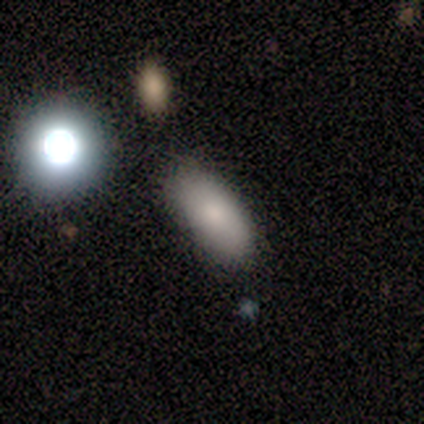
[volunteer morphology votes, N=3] smooth-or-featured: smooth: 100% | featured or disk: 0% | star or artifact: 0%
  how-rounded: in between: 100% | round: 0% | cigar-shaped: 0%
  merging: none: 100% | minor disturbance: 0% | major disturbance: 0% | merger: 0%